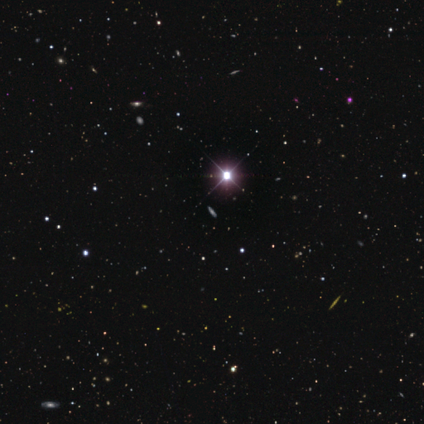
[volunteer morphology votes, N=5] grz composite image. It shows a star or artifact, not a galaxy (80%).